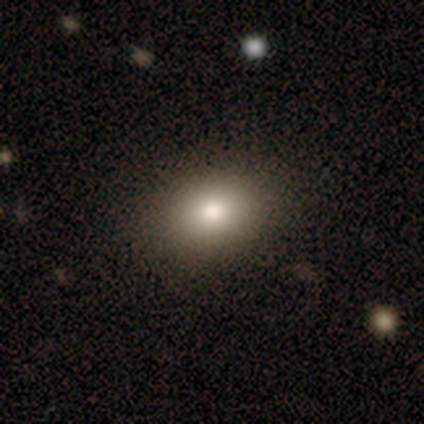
smooth_or_featured: smooth (p=0.65) [alt: star or artifact p=0.21]
how_rounded: in between (p=0.79) [alt: round p=0.21]
merging: none (p=0.76) [alt: minor disturbance p=0.12]